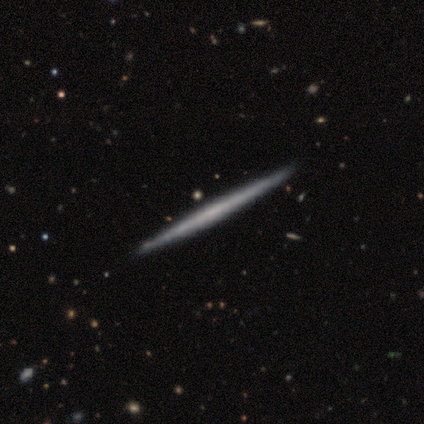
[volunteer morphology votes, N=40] Smooth or featured? featured or disk (80%)
Edge-on disk? yes (100%)
Edge-on bulge? none (94%)
Merging? none (65%)